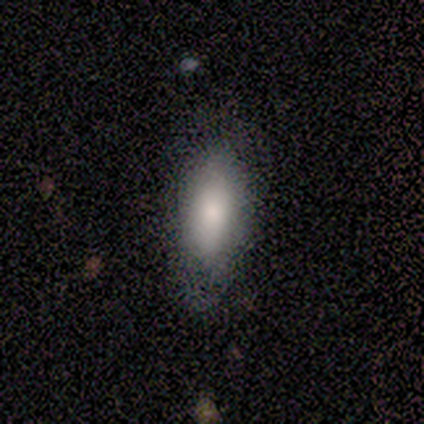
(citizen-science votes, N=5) A smooth galaxy with no disk features (80%) that is in between round and cigar-shaped (100%).

Vote fractions:
- Smooth or featured? smooth: 80% / star or artifact: 20% / featured or disk: 0%
- How rounded? in between: 100% / round: 0% / cigar-shaped: 0%
- Merging? none: 75% / minor disturbance: 25% / major disturbance: 0% / merger: 0%